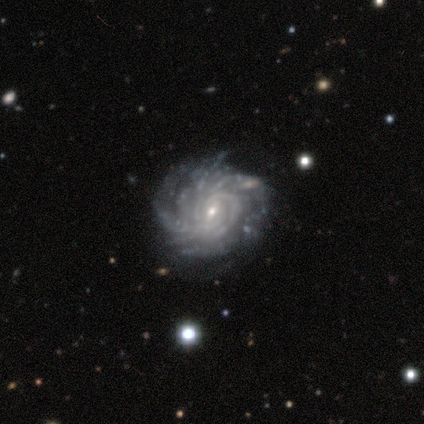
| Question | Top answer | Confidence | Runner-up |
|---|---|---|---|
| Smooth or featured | featured or disk | 100% | — |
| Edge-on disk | no | 100% | — |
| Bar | weak | 100% | — |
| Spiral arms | yes | 100% | — |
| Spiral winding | medium | 60% | tight (40%) |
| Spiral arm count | more than 4 | 60% | 3 (20%) |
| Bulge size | small | 80% | moderate (20%) |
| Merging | none | 80% | minor disturbance (20%) |